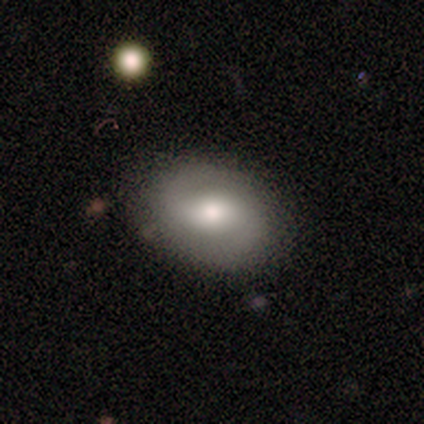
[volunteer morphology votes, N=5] smooth-or-featured: featured or disk: 100% | smooth: 0% | star or artifact: 0%
  disk-edge-on: no: 100% | yes: 0%
    bar: weak: 40% (tied) | no: 40% (tied) | strong: 20%
    has-spiral-arms: yes: 100% | no: 0%
      spiral-winding: medium: 40% (tied) | loose: 40% (tied) | tight: 20%
      spiral-arm-count: 2: 100% | 1: 0% | 3: 0% | 4: 0% | more than 4: 0% | can't tell: 0%
    bulge-size: moderate: 60% | large: 20% | small: 20% | dominant: 0% | none: 0%
  merging: none: 100% | minor disturbance: 0% | major disturbance: 0% | merger: 0%